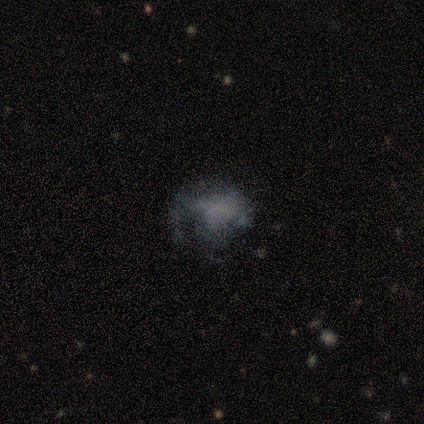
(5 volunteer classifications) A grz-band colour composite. It shows a smooth galaxy with no disk features (40%, tied with featured or disk) that is in between round and cigar-shaped (100%). Merging: none (50%).